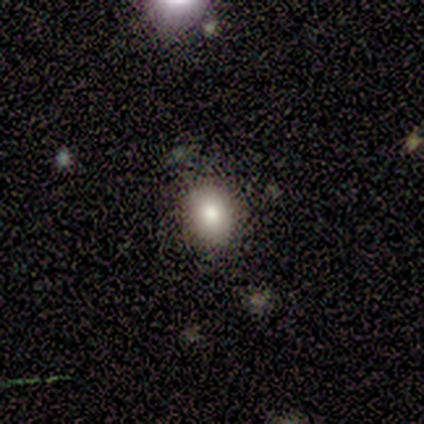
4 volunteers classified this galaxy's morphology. This is possibly a smooth galaxy (50%). How rounded: clearly in between (100%). Merging: clearly none (100%).